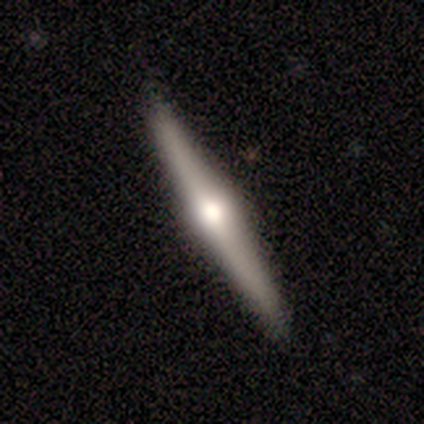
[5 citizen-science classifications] This is clearly a featured or disk galaxy (100%). It is clearly viewed edge-on (100%). Edge-on bulge: clearly rounded (100%). Merging: clearly none (100%).